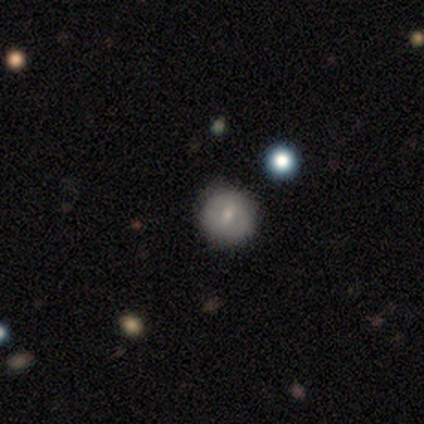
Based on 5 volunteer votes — Smooth or featured?
  - smooth: 80% *
  - featured or disk: 20%
  - star or artifact: 0%
How rounded?
  - round: 100% *
  - in between: 0%
  - cigar-shaped: 0%
Merging?
  - none: 100% *
  - minor disturbance: 0%
  - major disturbance: 0%
  - merger: 0%